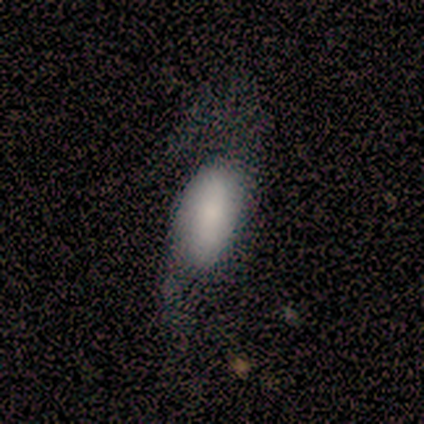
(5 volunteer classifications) Smooth or featured: smooth — 60% (featured or disk — 20%)
How rounded: in between — 100%
Merging: minor disturbance — 50% (none — 25%)